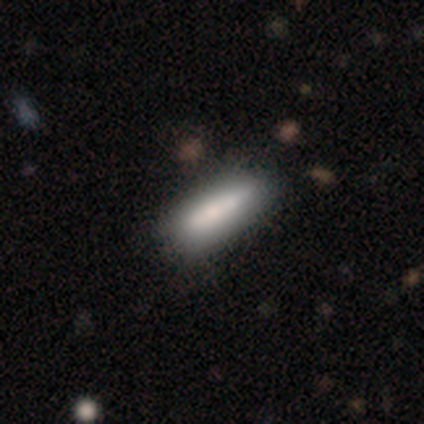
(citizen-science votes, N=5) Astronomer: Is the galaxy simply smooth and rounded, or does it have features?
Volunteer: smooth — 80%.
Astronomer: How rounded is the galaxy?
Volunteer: cigar-shaped — 75%.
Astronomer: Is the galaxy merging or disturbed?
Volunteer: none — 60% (runner-up: minor disturbance, 40%).